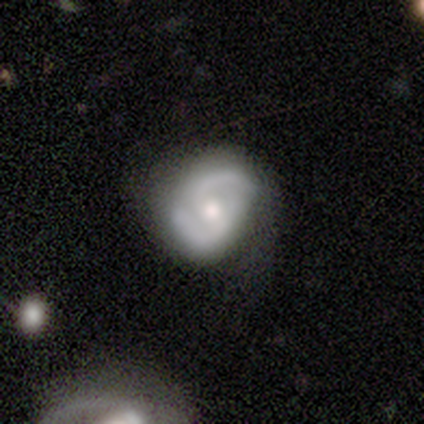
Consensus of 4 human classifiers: A featured or disk galaxy (75%) with no bar (100%), 2 (67%) medium (67%) spiral arms (100%) and a small central bulge (100%).

Vote fractions:
- Smooth or featured? featured or disk: 75% / smooth: 25% / star or artifact: 0%
- Edge-on disk? no: 100% / yes: 0%
- Bar? no: 100% / strong: 0% / weak: 0%
- Spiral arms? yes: 100% / no: 0%
- Spiral winding? medium: 67% / tight: 33% / loose: 0%
- Spiral arm count? 2: 67% / 1: 33% / 3: 0% / 4: 0% / more than 4: 0% / can't tell: 0%
- Bulge size? small: 100% / dominant: 0% / large: 0% / moderate: 0% / none: 0%
- Merging? minor disturbance: 75% / none: 25% / major disturbance: 0% / merger: 0%